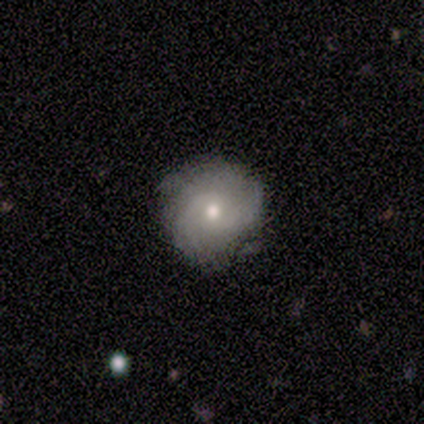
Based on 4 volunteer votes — A featured or disk galaxy (50%, tied with star or artifact) with no bar (100%), more than 4 (50%, tied with can't tell) tight (100%) spiral arms (100%) and a moderate central bulge (100%).

Vote fractions:
- Smooth or featured? featured or disk: 50% (tied) / star or artifact: 50% (tied) / smooth: 0%
- Edge-on disk? no: 100% / yes: 0%
- Bar? no: 100% / strong: 0% / weak: 0%
- Spiral arms? yes: 100% / no: 0%
- Spiral winding? tight: 100% / medium: 0% / loose: 0%
- Spiral arm count? more than 4: 50% (tied) / can't tell: 50% (tied) / 1: 0% / 2: 0% / 3: 0% / 4: 0%
- Bulge size? moderate: 100% / dominant: 0% / large: 0% / small: 0% / none: 0%
- Merging? none: 100% / minor disturbance: 0% / major disturbance: 0% / merger: 0%